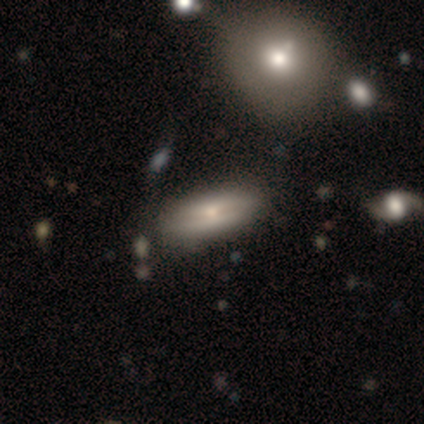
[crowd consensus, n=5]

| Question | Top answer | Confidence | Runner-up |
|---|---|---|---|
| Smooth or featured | smooth | 80% | featured or disk (20%) |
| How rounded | in between | 50% | tied: cigar-shaped (50%) |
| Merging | none | 80% | major disturbance (20%) |